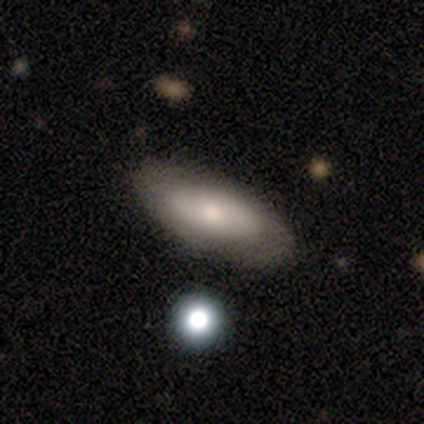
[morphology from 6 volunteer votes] smooth_or_featured: smooth (p=0.50) [tied with: featured or disk p=0.50]
how_rounded: in between (p=0.67) [alt: cigar-shaped p=0.33]
merging: none (p=0.83) [alt: minor disturbance p=0.17]